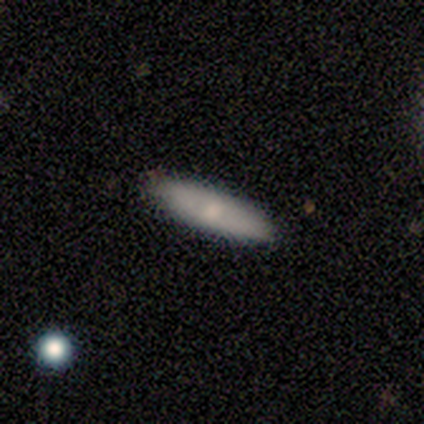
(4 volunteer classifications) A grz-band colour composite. It shows a smooth galaxy with no disk features (100%) that is cigar-shaped (75%). Merging: none (100%).